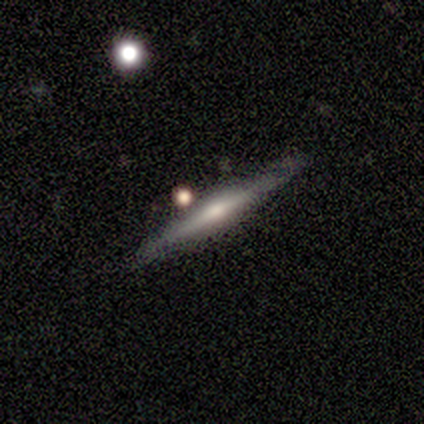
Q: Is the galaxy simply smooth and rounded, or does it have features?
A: featured or disk — 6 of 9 (67%).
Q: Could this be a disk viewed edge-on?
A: yes — 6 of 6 (100%).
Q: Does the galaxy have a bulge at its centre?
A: rounded — 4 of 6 (67%).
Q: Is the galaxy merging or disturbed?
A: none — 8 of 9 (89%).